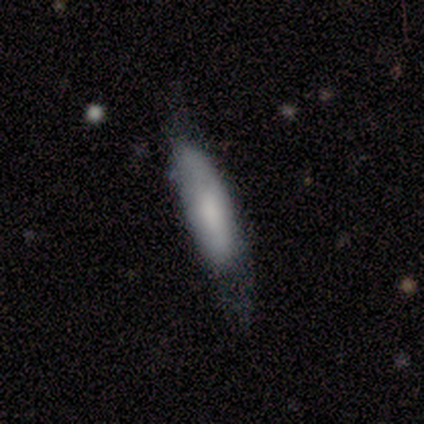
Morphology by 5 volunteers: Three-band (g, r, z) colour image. It shows a smooth galaxy with no disk features (80%) that is cigar-shaped (100%). Merging: none (40%, tied with minor disturbance).